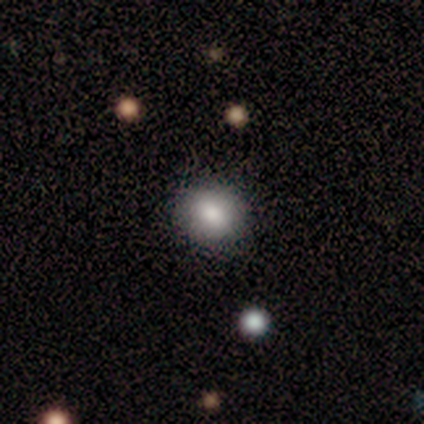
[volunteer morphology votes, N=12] smooth-or-featured: smooth: 75% | featured or disk: 17% | star or artifact: 8%
  how-rounded: round: 56% | in between: 44% | cigar-shaped: 0%
  merging: none: 91% | merger: 9% | minor disturbance: 0% | major disturbance: 0%